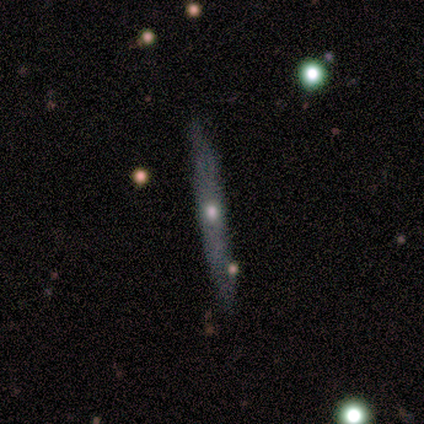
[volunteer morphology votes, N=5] A featured or disk galaxy (60%) viewed edge-on (100%) with a rounded central bulge (100%). Merging: none (100%).